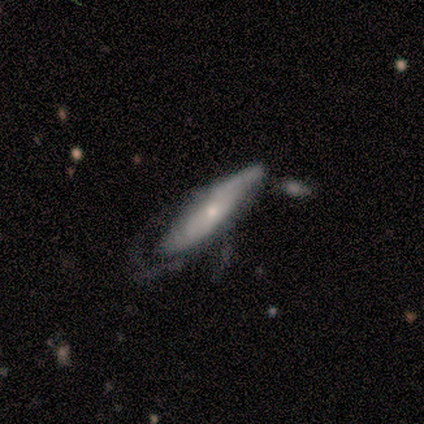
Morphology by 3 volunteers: smooth-or-featured: featured or disk: 67% | smooth: 33% | star or artifact: 0%
  disk-edge-on: yes: 100% | no: 0%
    edge-on-bulge: rounded: 100% | boxy: 0% | none: 0%
  merging: none: 33% (tied) | minor disturbance: 33% (tied) | major disturbance: 33% (tied) | merger: 0%